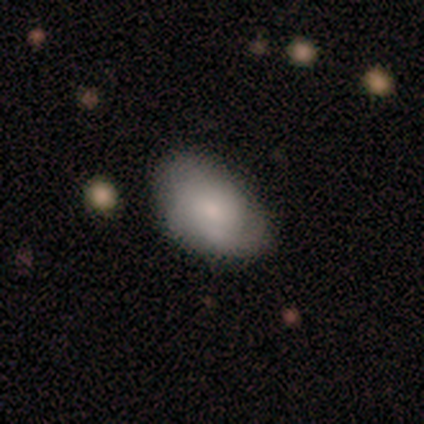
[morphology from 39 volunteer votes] smooth-or-featured: smooth: 64% | featured or disk: 26% | star or artifact: 10%
  how-rounded: in between: 84% | round: 16% | cigar-shaped: 0%
  merging: none: 71% | minor disturbance: 26% | major disturbance: 3% | merger: 0%